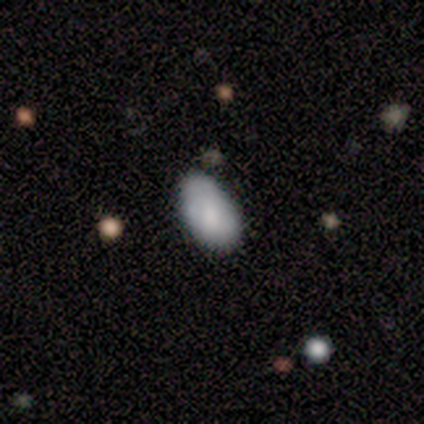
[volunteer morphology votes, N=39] Volunteers were most divided on "merging": none: 63%, minor disturbance: 37%, major disturbance: 0%, merger: 0%. More confident: how rounded — in between (97%); smooth or featured — smooth (87%).